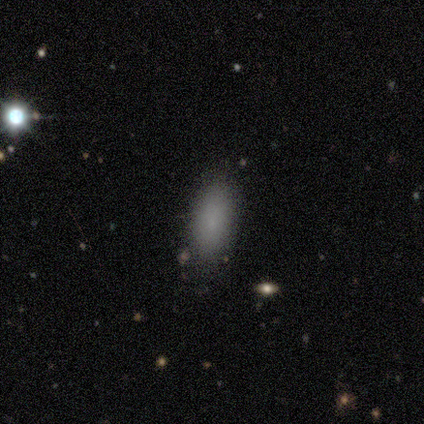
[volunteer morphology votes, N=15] smooth_or_featured: smooth (p=0.93) [alt: star or artifact p=0.07]
how_rounded: in between (p=0.57) [alt: cigar-shaped p=0.29]
merging: none (p=0.79) [alt: minor disturbance p=0.14]